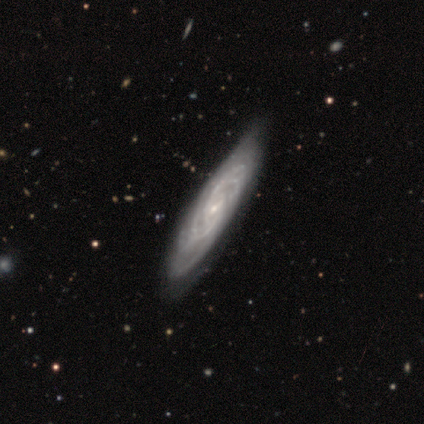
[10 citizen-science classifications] Volunteers were most divided on "bar": weak: 57%, no: 43%, strong: 0%. Remaining: smooth or featured — featured or disk (100%); spiral arms — yes (100%); bulge size — small (71%); edge-on disk — no (70%); merging — none (70%); spiral winding — medium (57%); spiral arm count — can't tell (43%).